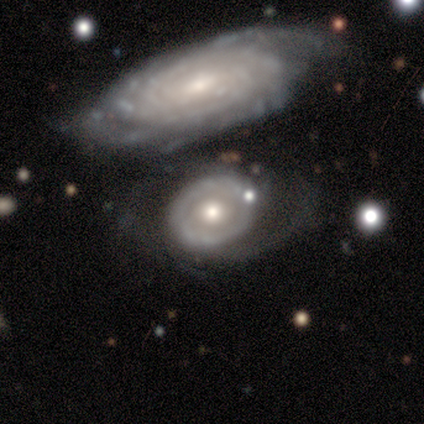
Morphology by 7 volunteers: A smooth galaxy with no disk features (43%, tied with featured or disk) that is round (100%). Merging: none (33%, tied with major disturbance).